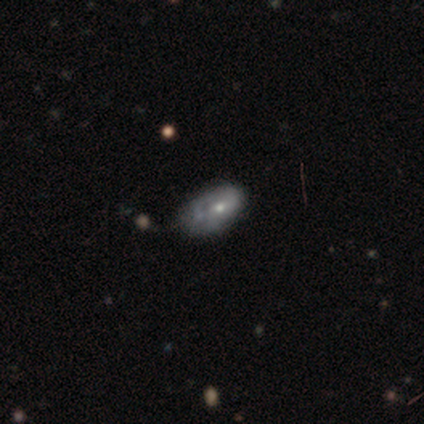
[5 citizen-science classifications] Smooth or featured? featured or disk (80%)
Edge-on disk? no (75%)
Bar? no (100%)
Spiral arms? no (67%)
Bulge size? small (100%)
Merging? minor disturbance (60%)